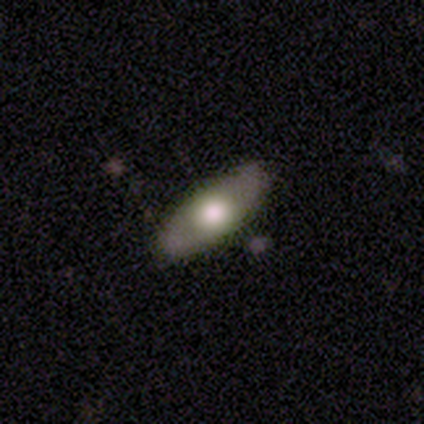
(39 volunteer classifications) Smooth or featured? 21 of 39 (54%) said smooth. How rounded? 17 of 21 (81%) said in between. Merging? 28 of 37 (76%) said none.